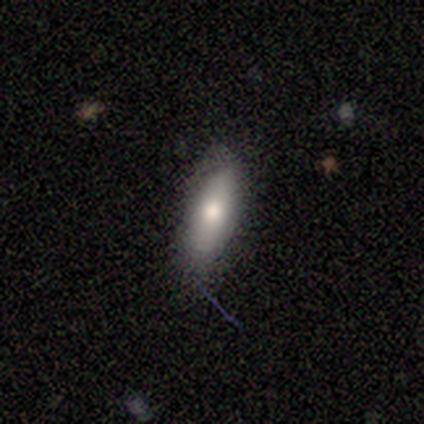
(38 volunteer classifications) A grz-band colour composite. It shows a smooth galaxy with no disk features (76%) that is in between round and cigar-shaped (52%). Merging: none (68%).